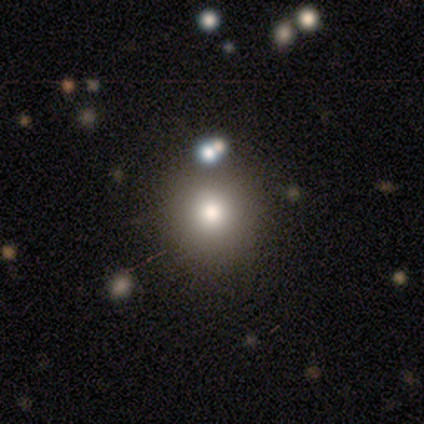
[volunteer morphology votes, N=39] Overall: smooth (79%). How rounded: round (90%). Merging: none (81%).